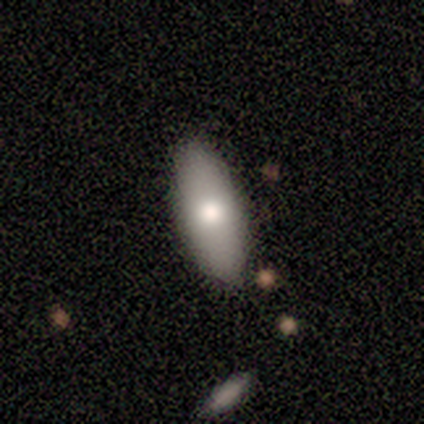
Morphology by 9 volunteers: A smooth galaxy with no disk features (56%) that is in between round and cigar-shaped (100%).

Vote fractions:
- Smooth or featured? smooth: 56% / featured or disk: 44% / star or artifact: 0%
- How rounded? in between: 100% / round: 0% / cigar-shaped: 0%
- Merging? none: 89% / minor disturbance: 11% / major disturbance: 0% / merger: 0%